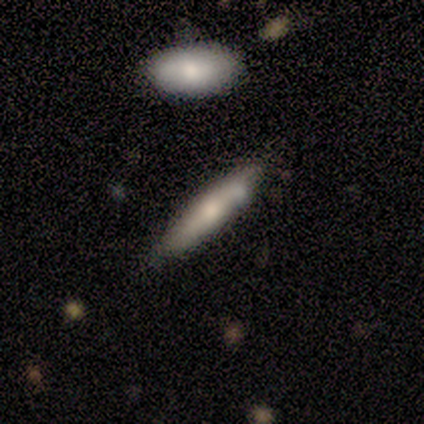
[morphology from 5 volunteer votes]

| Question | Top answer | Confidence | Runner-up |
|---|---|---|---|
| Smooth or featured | smooth | 100% | — |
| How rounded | cigar-shaped | 80% | in between (20%) |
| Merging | none | 100% | — |